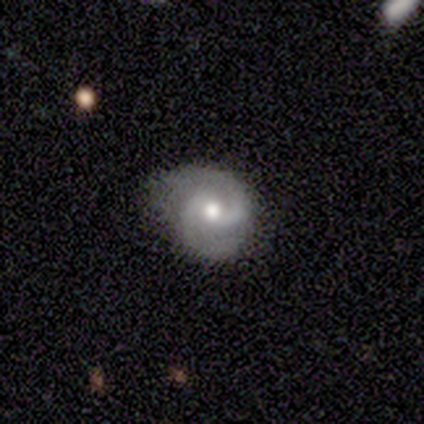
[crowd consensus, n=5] Overall: featured or disk (80%). Edge-on disk: no (100%). Bar: strong (50%, tied with no). Spiral arms: yes (100%). Spiral arm count: 2 (100%). Spiral winding: medium (75%). Bulge size: moderate (75%). Merging: none (60%; minor disturbance 40%).